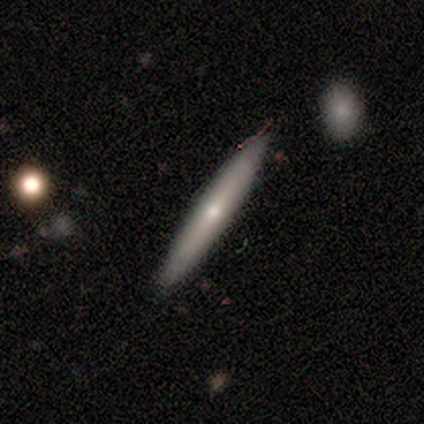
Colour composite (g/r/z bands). It shows a featured or disk galaxy (50%) viewed edge-on (84%) with a rounded central bulge (50%). Merging: none (91%).